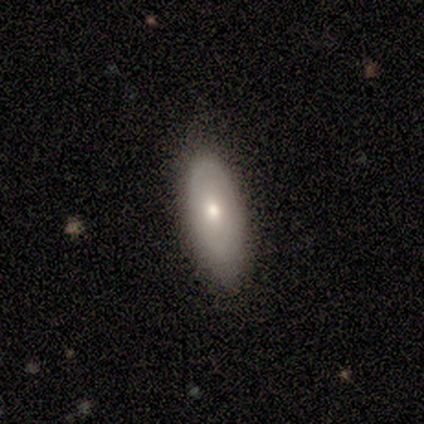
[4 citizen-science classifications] A smooth galaxy with no disk features (100%) that is in between round and cigar-shaped (75%). Merging: none (75%).